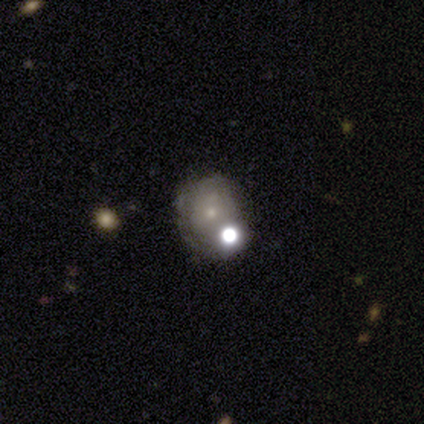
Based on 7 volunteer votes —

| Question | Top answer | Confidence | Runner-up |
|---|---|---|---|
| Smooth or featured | star or artifact | 71% | smooth (14%) |